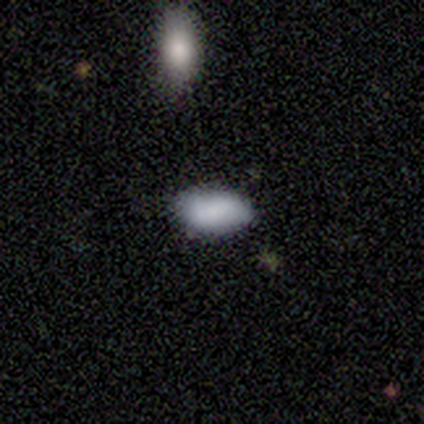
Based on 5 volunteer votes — Q: Smooth or featured?
A: smooth (100%)
Q: How rounded?
A: in between (80%); runner-up: cigar-shaped (20%)
Q: Merging?
A: none (80%); runner-up: minor disturbance (20%)